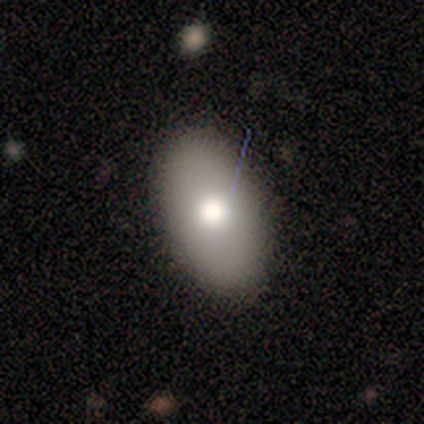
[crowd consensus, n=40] A smooth galaxy with no disk features (78%) that is in between round and cigar-shaped (97%).

Vote fractions:
- Smooth or featured? smooth: 78% / star or artifact: 12% / featured or disk: 10%
- How rounded? in between: 97% / round: 3% / cigar-shaped: 0%
- Merging? none: 83% / minor disturbance: 17% / major disturbance: 0% / merger: 0%